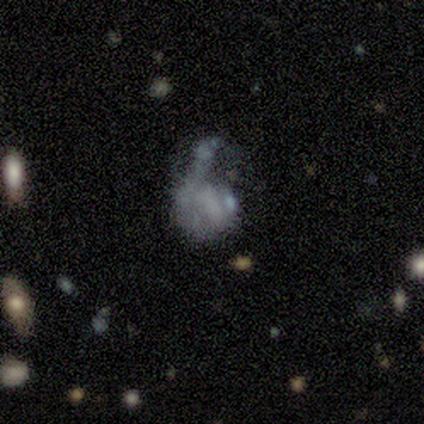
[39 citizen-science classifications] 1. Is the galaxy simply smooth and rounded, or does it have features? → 56% featured or disk, 36% smooth, 8% star or artifact.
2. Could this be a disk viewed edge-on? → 95% no, 5% yes.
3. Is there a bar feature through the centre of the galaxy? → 86% no, 10% strong, 5% weak.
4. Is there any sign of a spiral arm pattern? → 86% no, 14% yes.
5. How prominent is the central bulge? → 100% none, 0% dominant, 0% large, 0% moderate, 0% small.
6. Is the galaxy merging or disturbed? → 53% major disturbance, 22% merger, 19% none, 6% minor disturbance.